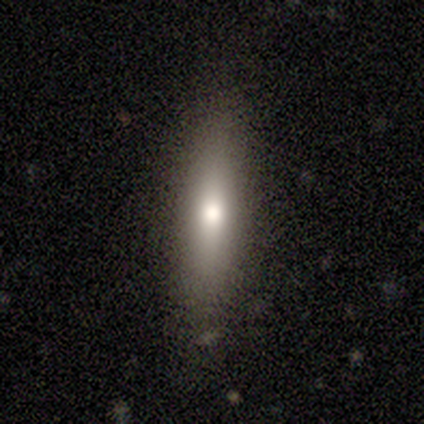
Smooth or featured? 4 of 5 (80%) said smooth. How rounded? 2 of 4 (50%, tied with cigar-shaped) said in between. Merging? 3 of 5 (60%) said none.